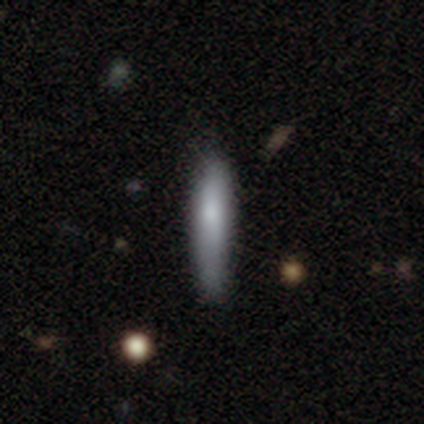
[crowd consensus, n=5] A smooth galaxy with no disk features (80%) that is cigar-shaped (75%). Merging: none (100%).